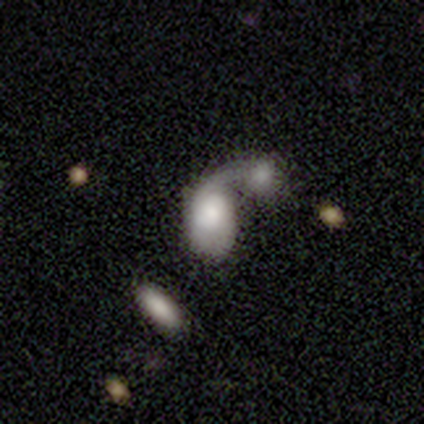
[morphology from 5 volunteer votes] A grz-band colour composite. It shows a smooth galaxy with no disk features (60%) that is in between round and cigar-shaped (67%). Merging: merger (100%).